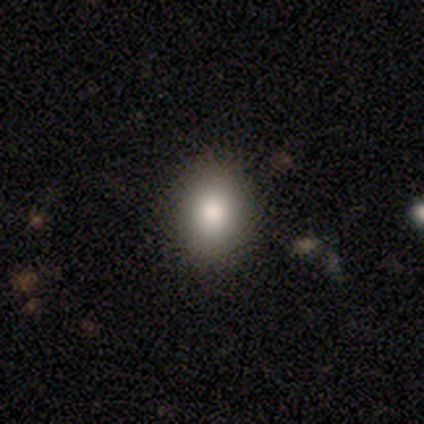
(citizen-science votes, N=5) Morphology: type=smooth (80%); roundness=round (50%, tied with in between); merging=none (80%).